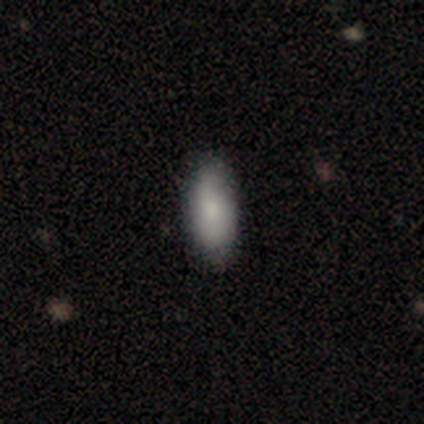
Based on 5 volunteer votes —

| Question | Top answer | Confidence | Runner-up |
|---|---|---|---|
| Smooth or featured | smooth | 100% | — |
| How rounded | in between | 100% | — |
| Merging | none | 60% | minor disturbance (40%) |